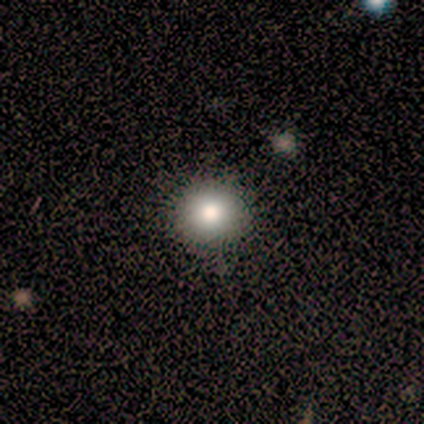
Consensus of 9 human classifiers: Morphology: type=smooth (78%); roundness=round (100%); merging=none (100%).